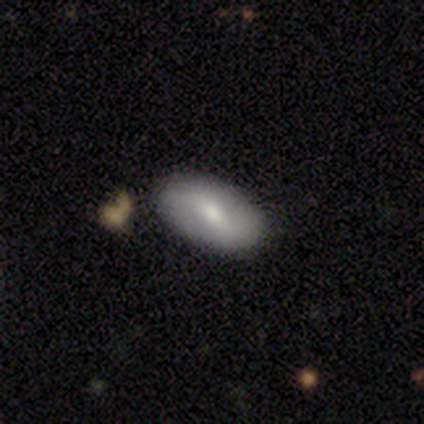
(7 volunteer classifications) smooth 71%, featured or disk 29%, star or artifact 0%. Down the decision tree: how rounded — in between (100%); merging — none (100%).